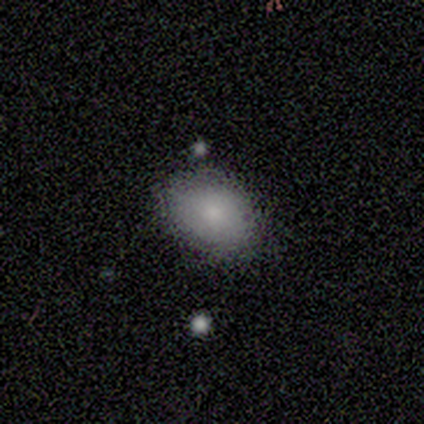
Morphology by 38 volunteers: Overall: smooth (89%). How rounded: in between (71%). Merging: none (76%).